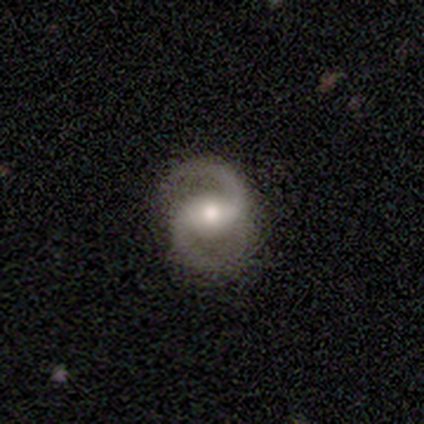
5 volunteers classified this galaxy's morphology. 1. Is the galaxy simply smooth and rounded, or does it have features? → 80% featured or disk, 20% star or artifact, 0% smooth.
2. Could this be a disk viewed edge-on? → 100% no, 0% yes.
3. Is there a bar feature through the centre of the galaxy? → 50% weak, 25% strong, 25% no.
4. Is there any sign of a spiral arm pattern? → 100% yes, 0% no.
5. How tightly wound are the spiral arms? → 50% medium, 25% tight, 25% loose.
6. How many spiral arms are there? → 100% 2, 0% 1, 0% 3, 0% 4, 0% more than 4, 0% can't tell.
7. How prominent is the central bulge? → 50% moderate, 25% large, 25% small, 0% dominant, 0% none.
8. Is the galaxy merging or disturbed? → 100% none, 0% minor disturbance, 0% major disturbance, 0% merger.